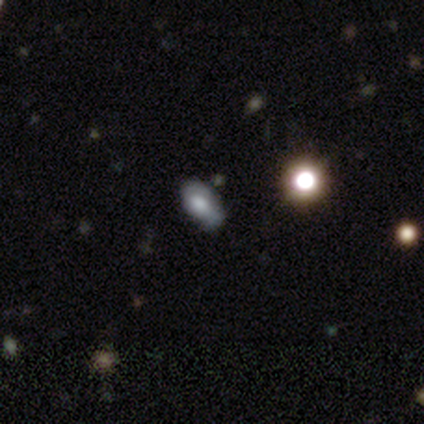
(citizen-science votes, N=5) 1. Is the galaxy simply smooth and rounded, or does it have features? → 60% smooth, 20% featured or disk, 20% star or artifact.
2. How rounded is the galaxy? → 100% in between, 0% round, 0% cigar-shaped.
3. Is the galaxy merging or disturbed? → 50% minor disturbance, 25% major disturbance, 25% merger, 0% none.